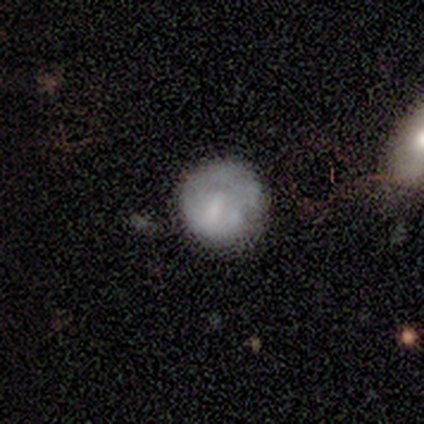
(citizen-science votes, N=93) This is possibly a smooth galaxy (54%). How rounded: clearly round (94%). Merging: likely none (64%).